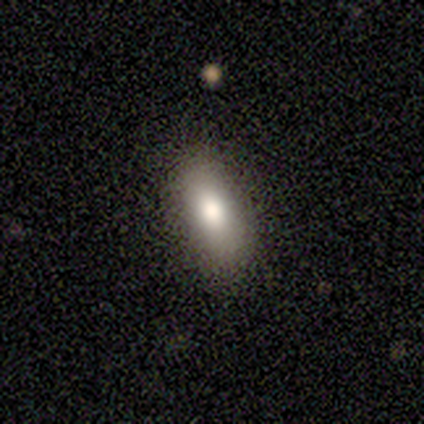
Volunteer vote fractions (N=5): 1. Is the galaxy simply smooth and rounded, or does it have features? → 80% smooth, 20% star or artifact, 0% featured or disk.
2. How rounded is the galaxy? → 100% in between, 0% round, 0% cigar-shaped.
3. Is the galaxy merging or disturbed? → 75% none, 25% minor disturbance, 0% major disturbance, 0% merger.